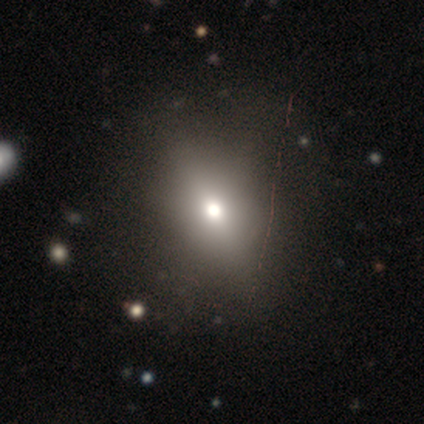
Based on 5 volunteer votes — Volunteers were most divided on "how rounded": in between: 50%, round: 25%, cigar-shaped: 25%. More confident: merging — none (100%); smooth or featured — smooth (80%).